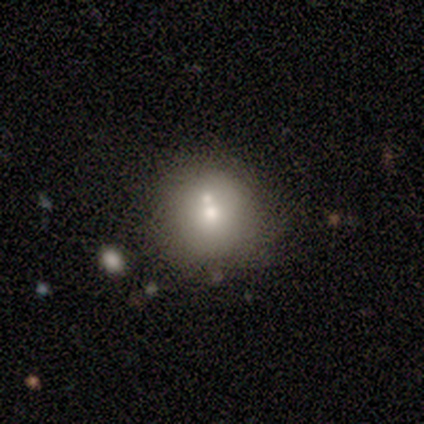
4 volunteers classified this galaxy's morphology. Smooth or featured: smooth — 75% (star or artifact — 25%)
How rounded: round — 100%
Merging: none — 33% (tied with minor disturbance — 33%; merger — 33%)